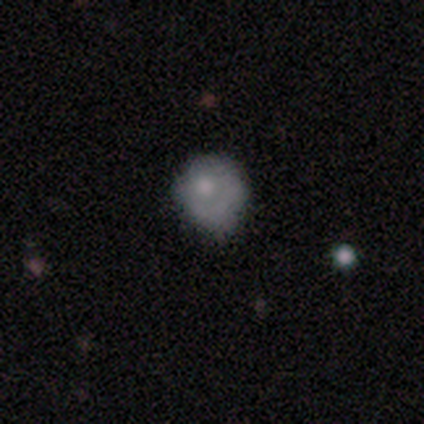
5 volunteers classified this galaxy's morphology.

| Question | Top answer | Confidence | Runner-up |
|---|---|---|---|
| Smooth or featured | smooth | 60% | featured or disk (20%) |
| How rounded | round | 100% | — |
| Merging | none | 100% | — |